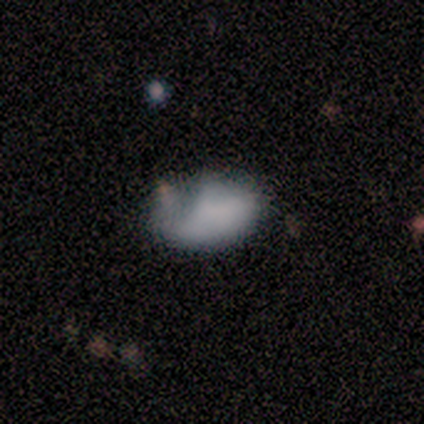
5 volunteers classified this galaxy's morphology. Volunteers were most divided on "merging": none: 60%, minor disturbance: 20%, merger: 20%, major disturbance: 0%. More confident: smooth or featured — smooth (80%); how rounded — in between (75%).